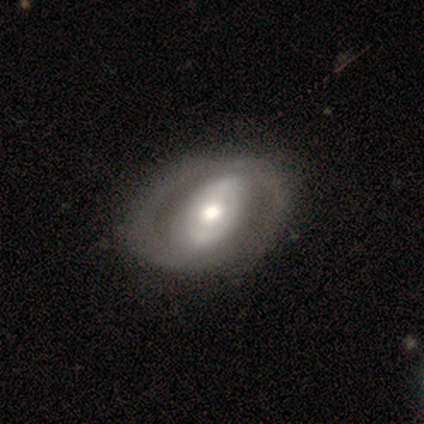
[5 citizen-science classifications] This is clearly a featured or disk galaxy (80%). It is clearly not viewed edge-on (100%). Bar: possibly strong (50%, tied with no). Spiral arm pattern: possibly yes (50%, tied with no). Spiral arm count: clearly 2 (100%). Spiral winding: clearly tight (100%). Central bulge: clearly moderate (100%). Merging: clearly none (80%).